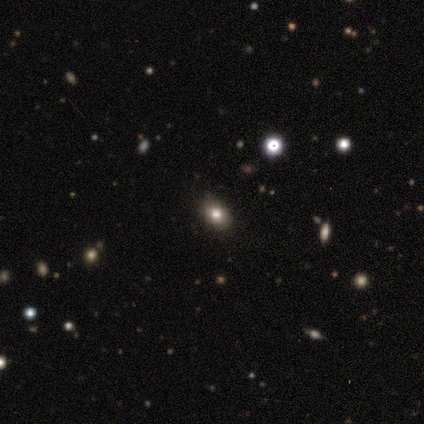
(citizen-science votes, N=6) smooth 50%, star or artifact 33%, featured or disk 17%. Down the decision tree: how rounded — in between (67%); merging — none (75%).